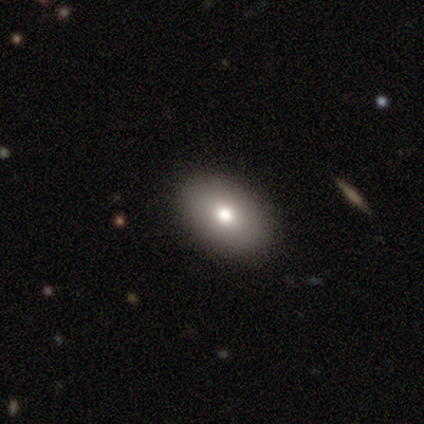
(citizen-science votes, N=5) Volunteers were most divided on "smooth or featured" (2-way tie): featured or disk: 40%, star or artifact: 40%, smooth: 20%. More confident: edge-on disk — no (100%); bar — no (100%); spiral arms — no (100%); bulge size — moderate (100%); merging — none (100%).